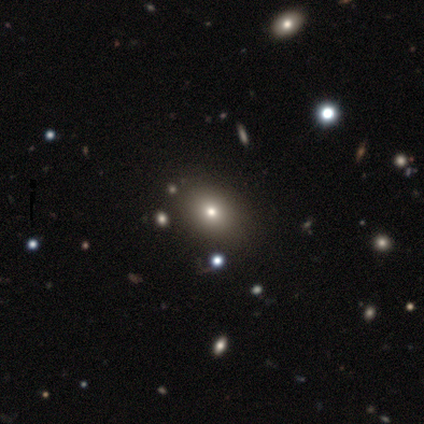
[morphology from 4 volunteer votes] Overall: smooth (50%, tied with star or artifact). How rounded: in between (100%). Merging: none (100%).